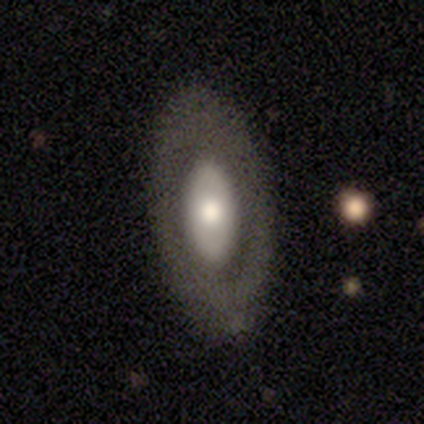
This appears to be a featured or disk galaxy (49%) with no bar (90%), no spiral arms (83%) and a moderate central bulge (50%). Merging: none (75%).